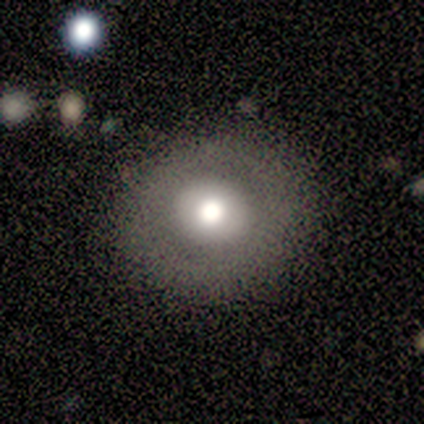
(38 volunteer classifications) Smooth or featured? smooth (66%)
How rounded? round (96%)
Merging? none (86%)